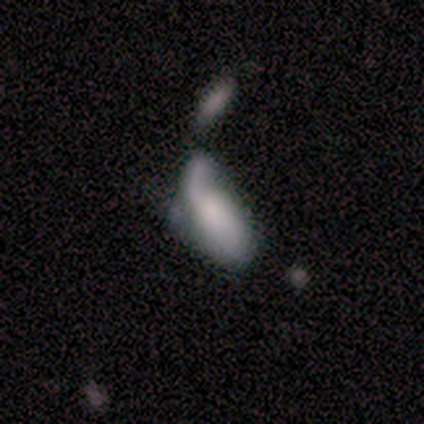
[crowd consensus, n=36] Smooth or featured: smooth — 64% (featured or disk — 36%)
How rounded: in between — 70% (cigar-shaped — 26%)
Merging: major disturbance — 42% (merger — 33%)